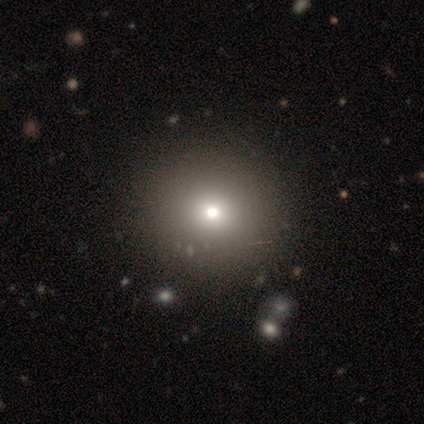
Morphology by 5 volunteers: Smooth or featured: smooth — 60% (star or artifact — 40%)
How rounded: round — 67% (in between — 33%)
Merging: none — 67% (merger — 33%)